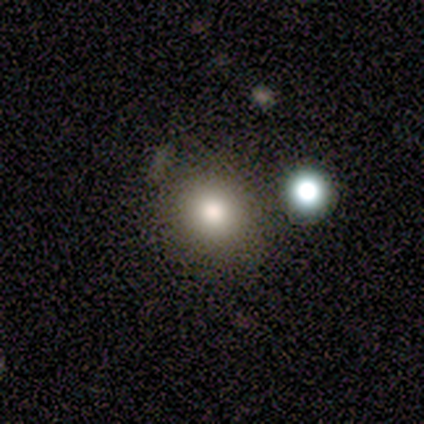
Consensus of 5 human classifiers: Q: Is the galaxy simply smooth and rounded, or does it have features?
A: smooth — 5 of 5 (100%).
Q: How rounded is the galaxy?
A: round — 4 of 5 (80%).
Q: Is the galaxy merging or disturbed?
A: none — 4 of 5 (80%).